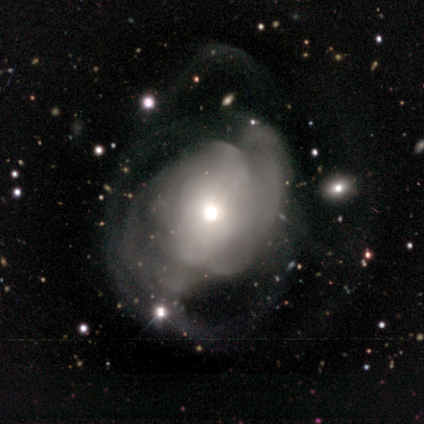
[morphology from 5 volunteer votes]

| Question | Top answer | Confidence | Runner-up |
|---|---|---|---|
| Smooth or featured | featured or disk | 80% | smooth (20%) |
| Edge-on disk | no | 100% | — |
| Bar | no | 50% | strong (25%) |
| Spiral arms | no | 75% | yes (25%) |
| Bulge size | moderate | 75% | small (25%) |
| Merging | major disturbance | 100% | — |